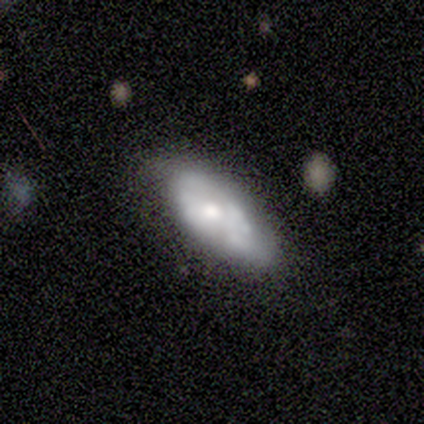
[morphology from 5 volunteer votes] A smooth galaxy with no disk features (60%) that is cigar-shaped (67%).

Vote fractions:
- Smooth or featured? smooth: 60% / featured or disk: 40% / star or artifact: 0%
- How rounded? cigar-shaped: 67% / in between: 33% / round: 0%
- Merging? none: 60% / minor disturbance: 20% / major disturbance: 20% / merger: 0%